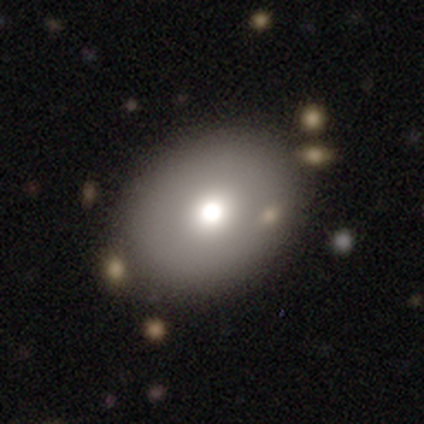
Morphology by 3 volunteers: A featured or disk galaxy (100%) with no bar (100%), no spiral arms (100%) and a moderate central bulge (67%).

Vote fractions:
- Smooth or featured? featured or disk: 100% / smooth: 0% / star or artifact: 0%
- Edge-on disk? no: 100% / yes: 0%
- Bar? no: 100% / strong: 0% / weak: 0%
- Spiral arms? no: 100% / yes: 0%
- Bulge size? moderate: 67% / small: 33% / dominant: 0% / large: 0% / none: 0%
- Merging? none: 67% / minor disturbance: 33% / major disturbance: 0% / merger: 0%